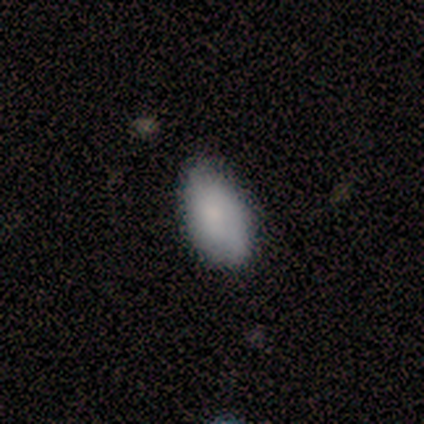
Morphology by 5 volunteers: Smooth or featured? 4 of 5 (80%) said smooth. How rounded? 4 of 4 (100%) said in between. Merging? 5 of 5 (100%) said none.